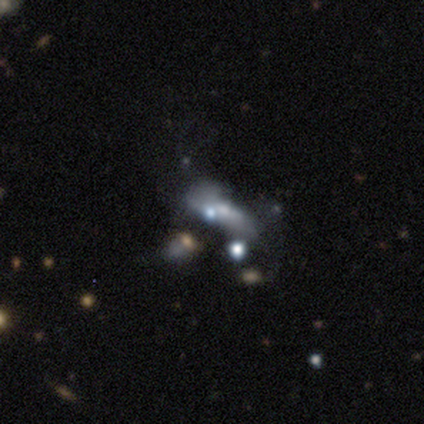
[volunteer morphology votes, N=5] Volunteers were most divided on "merging": minor disturbance: 50%, none: 25%, merger: 25%, major disturbance: 0%. More confident: edge-on disk — no (100%); bar — no (100%); spiral arms — no (100%); bulge size — small (67%); smooth or featured — featured or disk (60%).